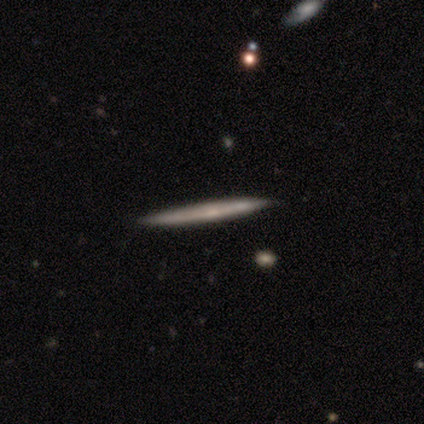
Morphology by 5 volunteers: Overall: smooth (60%; featured or disk 20%). How rounded: cigar-shaped (100%). Merging: none (100%).